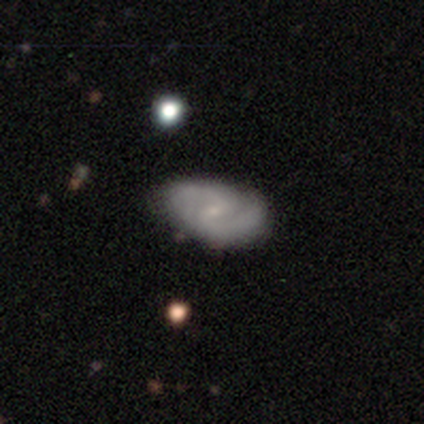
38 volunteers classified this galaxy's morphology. type=featured or disk (76%); edge-on=no (100%); bar=weak (62%); spiral arms=yes (86%); winding=medium (56%); arm count=2 (96%); bulge=small (83%); merging=none (53%).